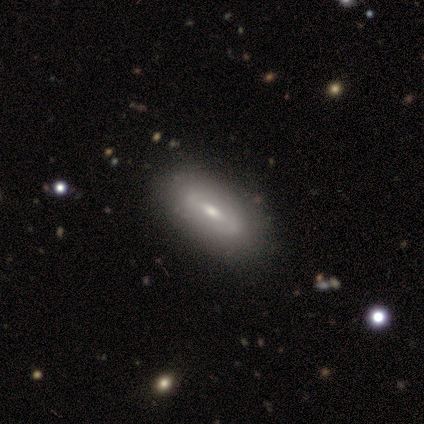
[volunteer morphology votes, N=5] Overall: featured or disk (60%; smooth 20%). Edge-on disk: no (100%). Bar: weak (67%; no 33%). Spiral arms: no (67%; yes 33%). Bulge size: moderate (67%; small 33%). Merging: none (50%, tied with minor disturbance).